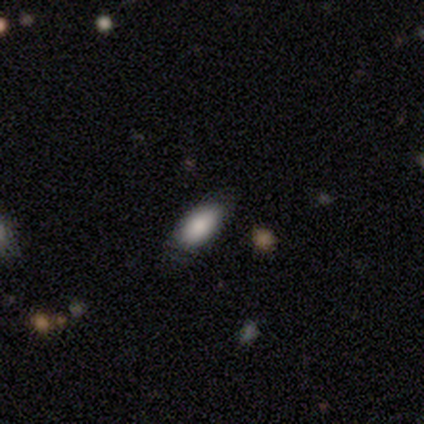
This is clearly a smooth galaxy (85%). How rounded: clearly in between (82%). Merging: possibly none (50%, tied with minor disturbance).